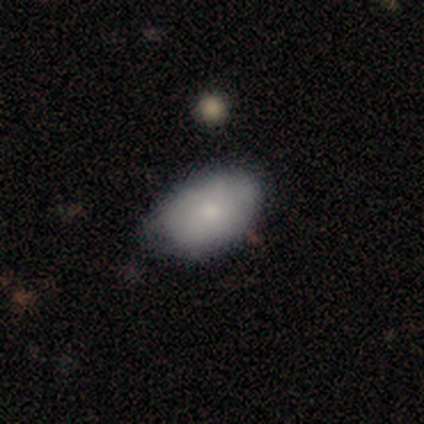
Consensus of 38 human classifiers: Q: Smooth or featured?
A: smooth (68%); runner-up: featured or disk (21%)
Q: How rounded?
A: in between (85%); runner-up: round (15%)
Q: Merging?
A: none (62%); runner-up: minor disturbance (38%)